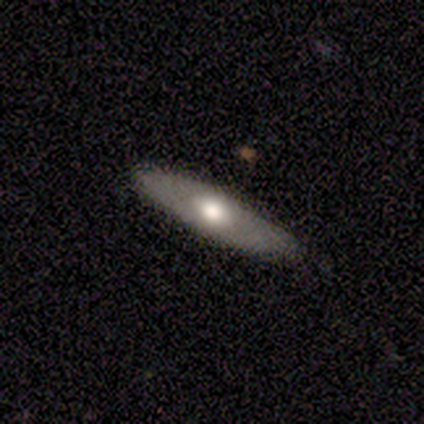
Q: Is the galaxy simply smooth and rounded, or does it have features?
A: featured or disk — 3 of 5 (60%).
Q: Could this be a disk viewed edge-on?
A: yes — 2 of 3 (67%).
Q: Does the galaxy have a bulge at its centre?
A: rounded — 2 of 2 (100%).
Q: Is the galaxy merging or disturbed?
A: none — 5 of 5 (100%).